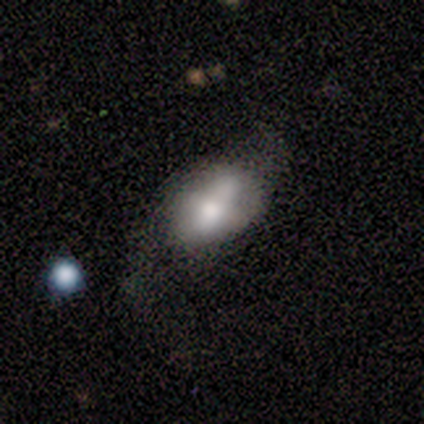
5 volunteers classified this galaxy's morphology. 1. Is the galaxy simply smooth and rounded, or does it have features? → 80% smooth, 20% featured or disk, 0% star or artifact.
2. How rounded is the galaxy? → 100% in between, 0% round, 0% cigar-shaped.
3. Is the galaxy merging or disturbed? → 60% major disturbance, 40% minor disturbance, 0% none, 0% merger.